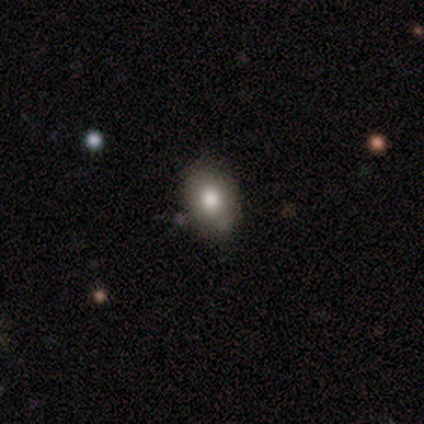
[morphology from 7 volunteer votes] type=smooth (86%); roundness=in between (67%); merging=none (71%).